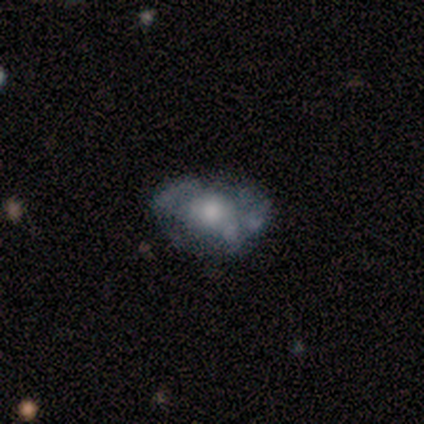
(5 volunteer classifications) Smooth or featured: featured or disk — 100%
Edge-on disk: no — 100%
Bar: no — 100%
Spiral arms: no — 80% (yes — 20%)
Bulge size: moderate — 60% (large — 20%)
Merging: none — 60% (minor disturbance — 40%)